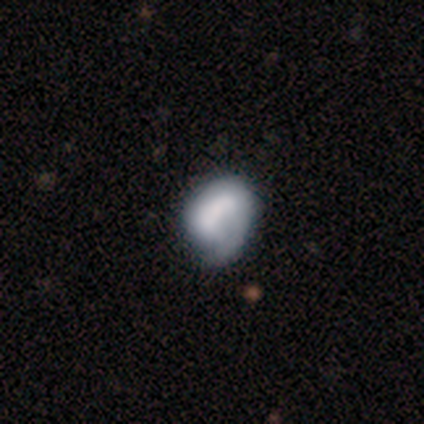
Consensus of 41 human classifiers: Morphology: type=smooth (49%); roundness=in between (55%); merging=minor disturbance (36%).